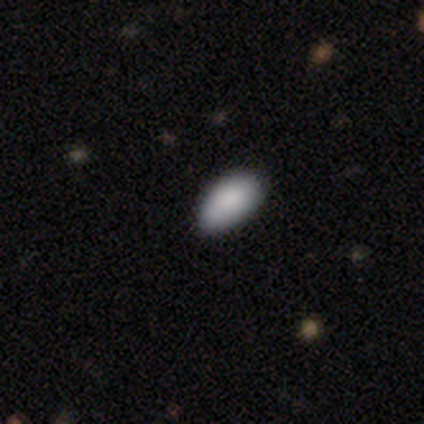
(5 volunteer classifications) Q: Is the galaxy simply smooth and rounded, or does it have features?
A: smooth — 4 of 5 (80%).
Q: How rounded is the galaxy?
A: in between — 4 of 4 (100%).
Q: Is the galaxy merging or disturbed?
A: minor disturbance — 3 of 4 (75%).